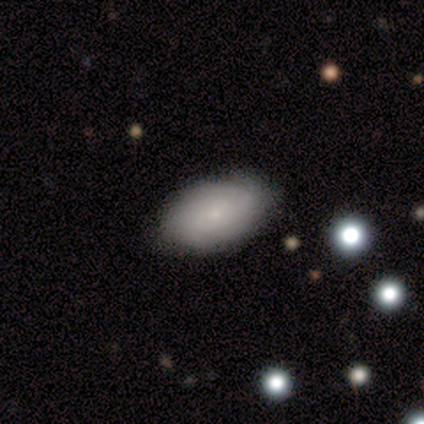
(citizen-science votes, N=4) Morphology: type=smooth (75%); roundness=in between (100%); merging=none (75%).